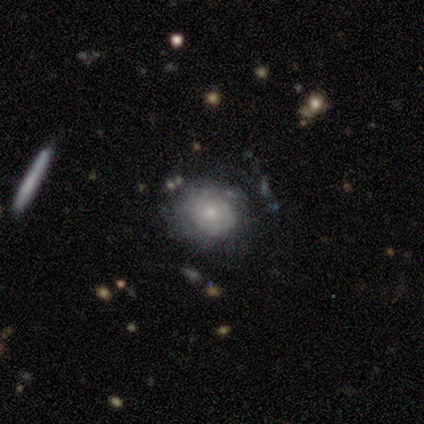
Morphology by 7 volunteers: Smooth or featured? 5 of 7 (71%) said featured or disk. Edge-on disk? 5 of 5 (100%) said no. Bar? 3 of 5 (60%) said no. Spiral arms? 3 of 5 (60%) said no. Bulge size? 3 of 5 (60%) said small. Merging? 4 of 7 (57%) said minor disturbance.